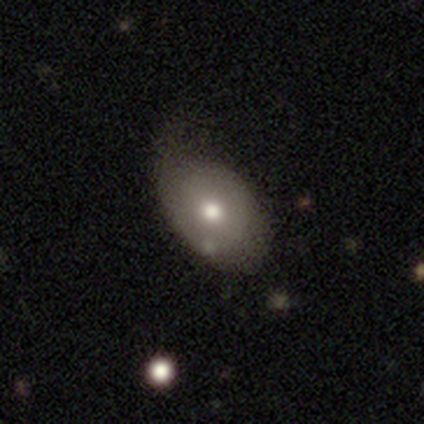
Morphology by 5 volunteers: This is likely a smooth galaxy (60%). How rounded: clearly in between (100%). Merging: possibly major disturbance (50%).